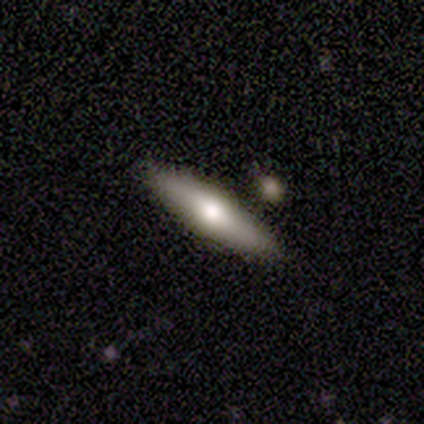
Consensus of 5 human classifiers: Smooth or featured: smooth — 60% (featured or disk — 20%)
How rounded: cigar-shaped — 67% (in between — 33%)
Merging: none — 75% (minor disturbance — 25%)